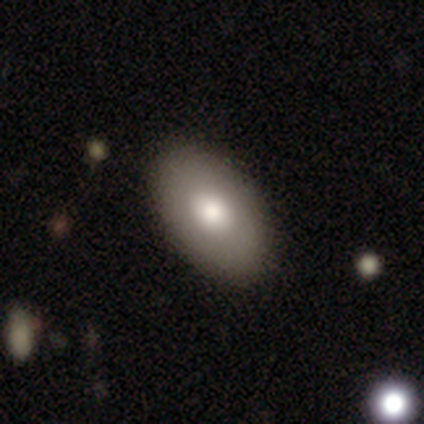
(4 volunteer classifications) Overall: smooth (75%). How rounded: in between (100%). Merging: none (100%).